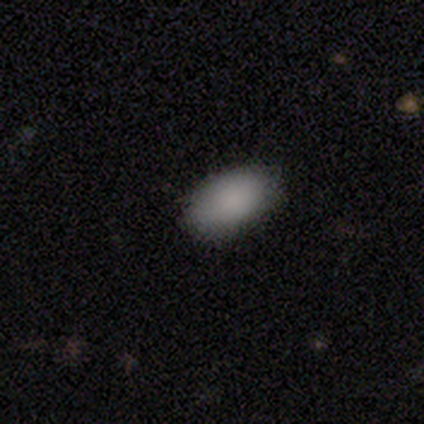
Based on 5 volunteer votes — Smooth or featured? smooth (80%)
How rounded? in between (100%)
Merging? none (100%)